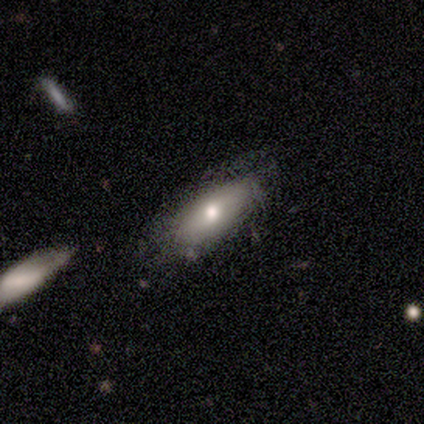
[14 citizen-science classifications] Smooth or featured?
  - smooth: 86% *
  - featured or disk: 14%
  - star or artifact: 0%
How rounded?
  - in between: 83% *
  - round: 8%
  - cigar-shaped: 8%
Merging?
  - none: 64% *
  - minor disturbance: 29%
  - merger: 7%
  - major disturbance: 0%